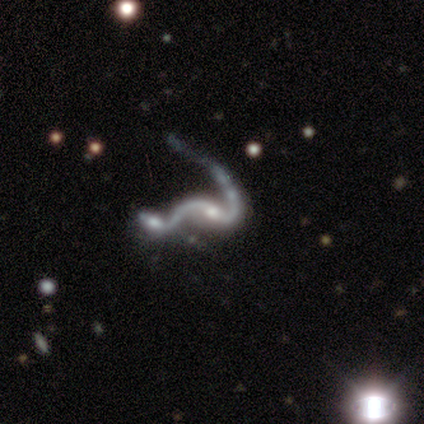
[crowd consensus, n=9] Overall: featured or disk (78%). Edge-on disk: no (100%). Bar: no (43%; strong 29%). Spiral arms: yes (86%). Spiral arm count: 2 (100%). Spiral winding: loose (100%). Bulge size: moderate (57%; small 43%). Merging: merger (75%).